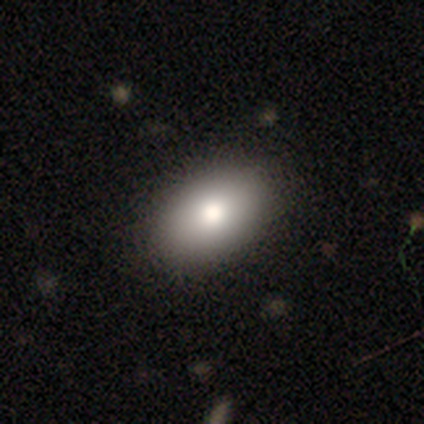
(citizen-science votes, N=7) Morphology: type=smooth (57%); roundness=in between (100%); merging=none (83%).